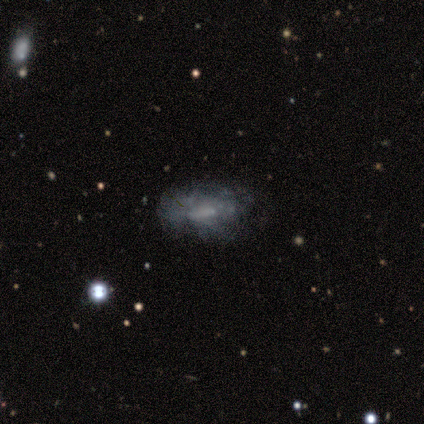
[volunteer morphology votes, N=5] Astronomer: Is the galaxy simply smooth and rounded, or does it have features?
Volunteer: featured or disk — 100%.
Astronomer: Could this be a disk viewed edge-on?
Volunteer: no — 80%.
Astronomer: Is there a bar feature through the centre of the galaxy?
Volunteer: no — 100%.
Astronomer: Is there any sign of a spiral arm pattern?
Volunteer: no — 100%.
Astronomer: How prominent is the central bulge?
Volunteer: none — 100%.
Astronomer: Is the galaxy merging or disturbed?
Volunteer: none — 80%.